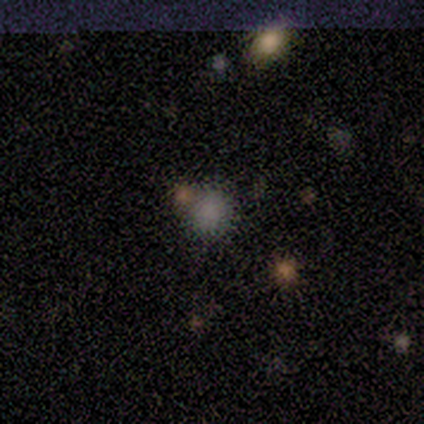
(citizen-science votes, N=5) Smooth or featured? 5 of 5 (100%) said smooth. How rounded? 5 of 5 (100%) said round. Merging? 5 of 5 (100%) said none.